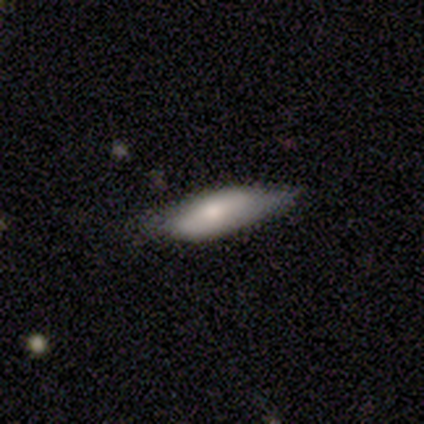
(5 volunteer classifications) smooth-or-featured: featured or disk: 60% | smooth: 40% | star or artifact: 0%
  disk-edge-on: no: 100% | yes: 0%
    bar: strong: 67% | no: 33% | weak: 0%
    has-spiral-arms: yes: 67% | no: 33%
      spiral-winding: tight: 50% (tied) | medium: 50% (tied) | loose: 0%
      spiral-arm-count: 2: 100% | 1: 0% | 3: 0% | 4: 0% | more than 4: 0% | can't tell: 0%
    bulge-size: small: 67% | moderate: 33% | dominant: 0% | large: 0% | none: 0%
  merging: none: 60% | minor disturbance: 40% | major disturbance: 0% | merger: 0%